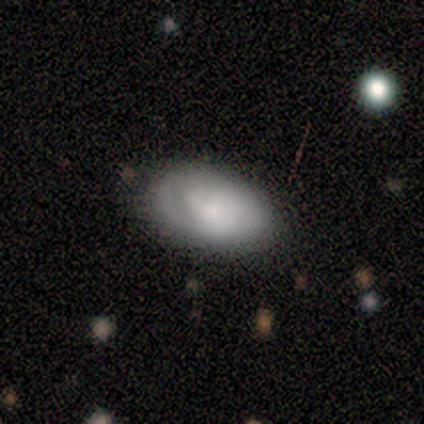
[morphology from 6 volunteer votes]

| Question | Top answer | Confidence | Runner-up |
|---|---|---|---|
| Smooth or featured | smooth | 67% | featured or disk (33%) |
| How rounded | in between | 100% | — |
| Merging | none | 100% | — |